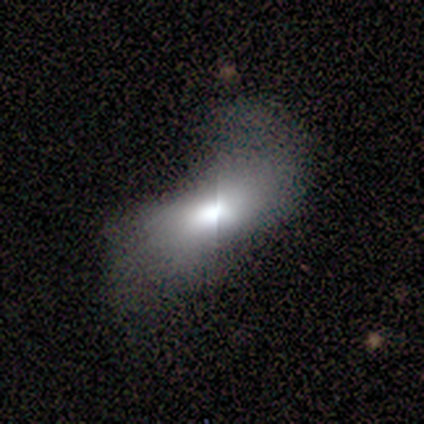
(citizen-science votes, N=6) Smooth or featured? 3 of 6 (50%) said smooth. How rounded? 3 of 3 (100%) said in between. Merging? 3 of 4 (75%) said major disturbance.